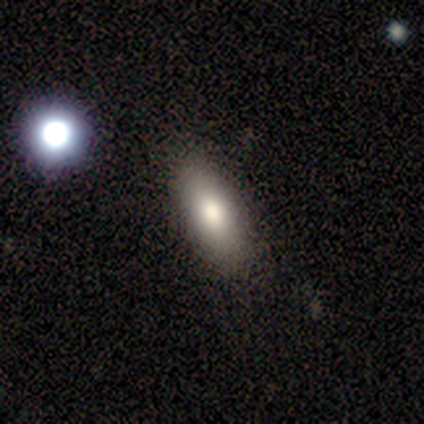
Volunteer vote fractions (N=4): Smooth or featured? 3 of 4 (75%) said smooth. How rounded? 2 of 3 (67%) said in between. Merging? 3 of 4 (75%) said none.